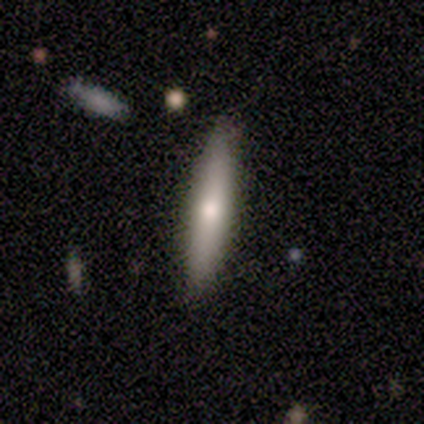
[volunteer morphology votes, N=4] A smooth galaxy with no disk features (75%) that is cigar-shaped (67%). Merging: none (100%).